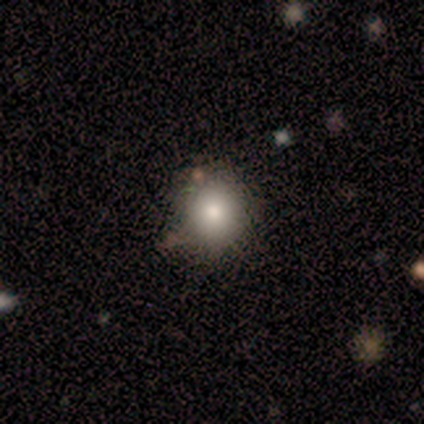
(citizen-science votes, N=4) Smooth or featured? 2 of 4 (50%, tied with featured or disk) said smooth. How rounded? 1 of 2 (50%, tied with in between) said round. Merging? 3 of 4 (75%) said minor disturbance.